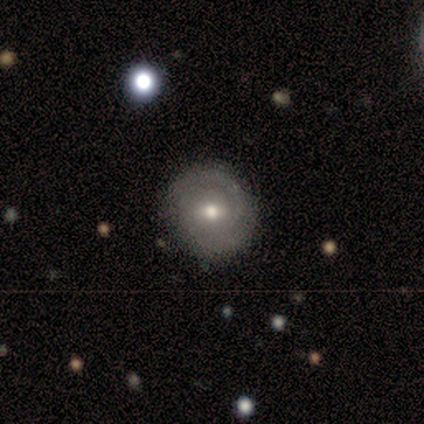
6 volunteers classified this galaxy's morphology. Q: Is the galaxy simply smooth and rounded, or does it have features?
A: featured or disk — 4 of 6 (67%).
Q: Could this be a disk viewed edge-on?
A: no — 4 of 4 (100%).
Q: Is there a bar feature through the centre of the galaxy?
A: weak — 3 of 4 (75%).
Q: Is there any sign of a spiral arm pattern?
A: yes — 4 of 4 (100%).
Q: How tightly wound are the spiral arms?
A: tight — 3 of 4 (75%).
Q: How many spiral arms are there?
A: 2 — 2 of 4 (50%).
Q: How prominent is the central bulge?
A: moderate — 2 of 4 (50%).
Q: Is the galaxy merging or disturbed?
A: none — 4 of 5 (80%).